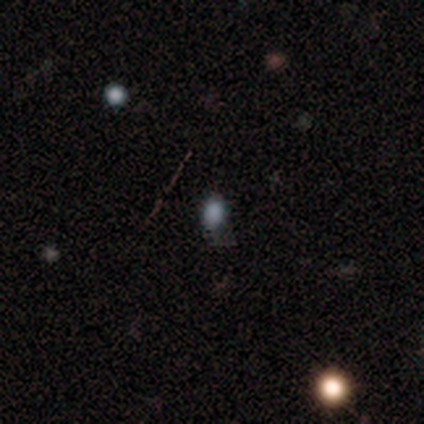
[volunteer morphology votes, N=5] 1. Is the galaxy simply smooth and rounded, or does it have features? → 100% smooth, 0% featured or disk, 0% star or artifact.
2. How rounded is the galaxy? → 80% in between, 20% round, 0% cigar-shaped.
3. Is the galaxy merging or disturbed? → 80% none, 20% minor disturbance, 0% major disturbance, 0% merger.